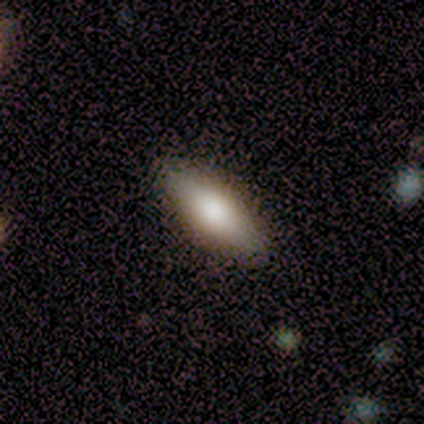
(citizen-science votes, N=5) smooth_or_featured: smooth (p=0.60) [alt: featured or disk p=0.40]
how_rounded: in between (p=0.67) [alt: cigar-shaped p=0.33]
merging: none (p=0.80) [alt: minor disturbance p=0.20]